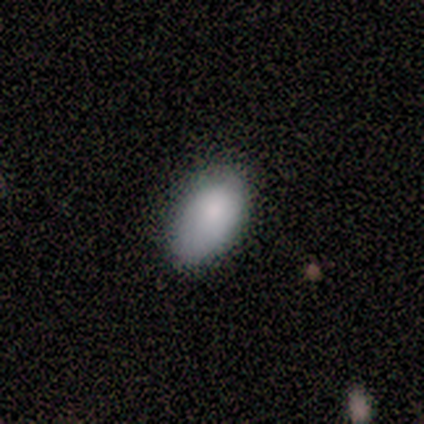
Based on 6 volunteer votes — smooth-or-featured: smooth: 83% | featured or disk: 17% | star or artifact: 0%
  how-rounded: in between: 100% | round: 0% | cigar-shaped: 0%
  merging: none: 67% | minor disturbance: 33% | major disturbance: 0% | merger: 0%